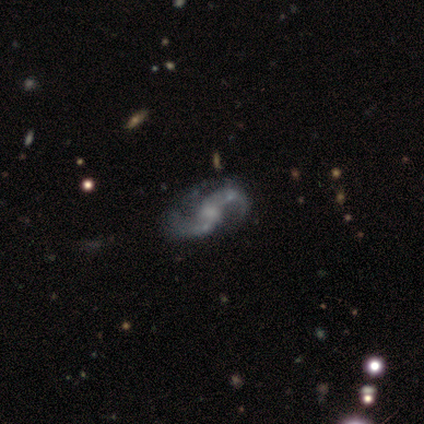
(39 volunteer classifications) Volunteers were most divided on "bulge size": moderate: 34%, none: 31%, small: 29%, large: 6%, dominant: 0%. More confident: spiral arms — yes (97%); smooth or featured — featured or disk (95%); edge-on disk — no (95%); spiral arm count — 2 (91%); spiral winding — loose (85%); bar — no (69%); merging — none (53%).